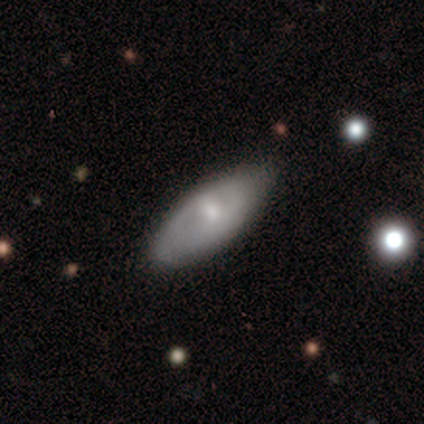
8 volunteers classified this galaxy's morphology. smooth_or_featured: smooth (p=0.75) [alt: featured or disk p=0.25]
how_rounded: in between (p=0.67) [alt: cigar-shaped p=0.33]
merging: minor disturbance (p=0.62) [alt: none p=0.38]